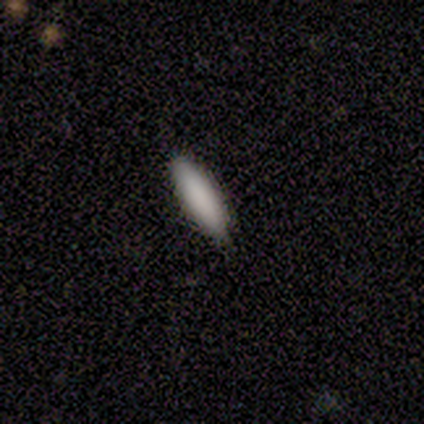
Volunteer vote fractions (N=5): Smooth or featured? 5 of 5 (100%) said smooth. How rounded? 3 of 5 (60%) said cigar-shaped. Merging? 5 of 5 (100%) said none.